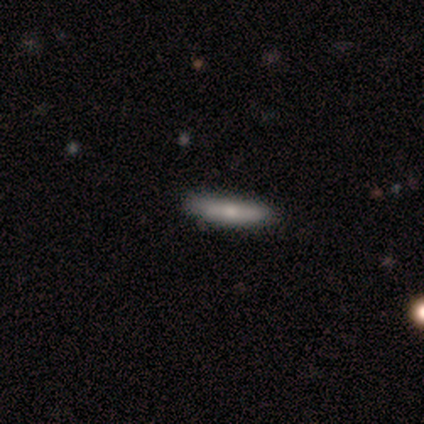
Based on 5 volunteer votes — Volunteers were most divided on "smooth or featured": smooth: 80%, star or artifact: 20%, featured or disk: 0%. More confident: how rounded — cigar-shaped (100%); merging — none (100%).